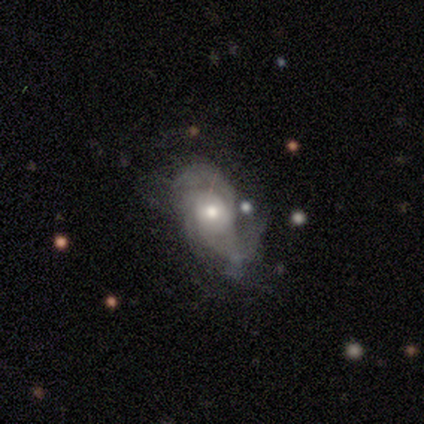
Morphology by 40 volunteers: This appears to be a featured or disk galaxy (70%) with no bar (76%), 2 (75%) loose (45%) spiral arms (80%) and a moderate central bulge (64%). Merging: none (60%).